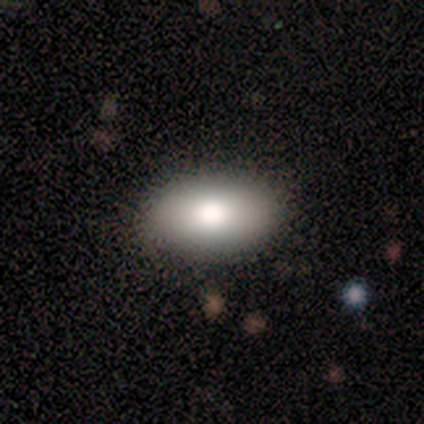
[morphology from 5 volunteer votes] smooth 100%, featured or disk 0%, star or artifact 0%. Down the decision tree: how rounded — in between (80%); merging — none (100%).